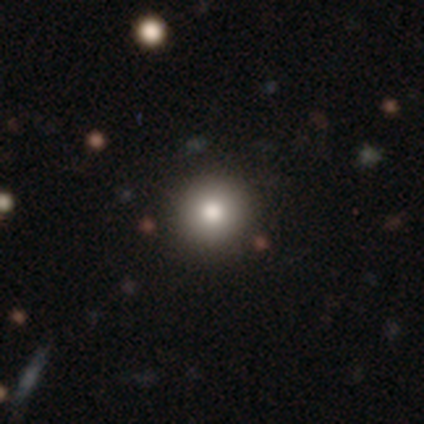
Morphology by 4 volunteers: Smooth or featured?
  - smooth: 75% *
  - star or artifact: 25%
  - featured or disk: 0%
How rounded?
  - round: 100% *
  - in between: 0%
  - cigar-shaped: 0%
Merging?
  - none: 100% *
  - minor disturbance: 0%
  - major disturbance: 0%
  - merger: 0%